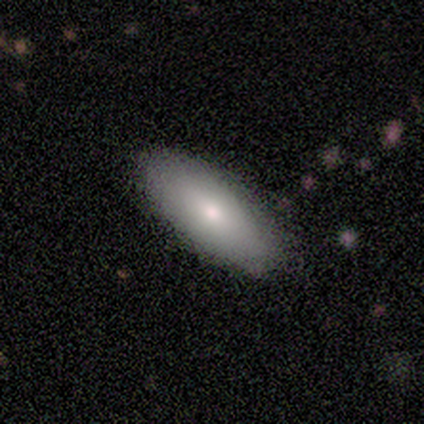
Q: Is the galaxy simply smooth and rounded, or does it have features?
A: smooth — 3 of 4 (75%).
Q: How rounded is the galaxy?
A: in between — 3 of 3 (100%).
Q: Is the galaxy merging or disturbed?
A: none — 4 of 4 (100%).